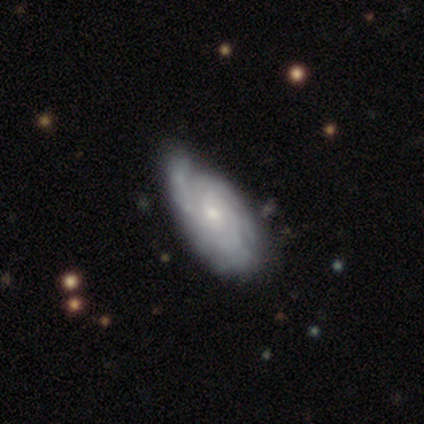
Q: Smooth or featured?
A: featured or disk (100%)
Q: Edge-on disk?
A: no (100%)
Q: Bar?
A: no (100%)
Q: Spiral arms?
A: yes (100%)
Q: Spiral winding?
A: tight (75%); runner-up: loose (25%)
Q: Spiral arm count?
A: can't tell (100%)
Q: Bulge size?
A: small (75%); runner-up: moderate (25%)
Q: Merging?
A: none (50%); tied with: minor disturbance (50%)